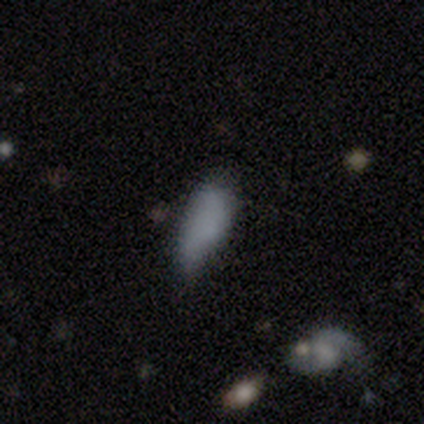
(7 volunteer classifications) Morphology: type=smooth (71%); roundness=in between (100%); merging=none (57%).